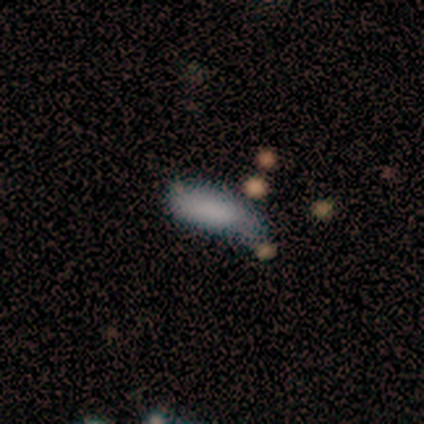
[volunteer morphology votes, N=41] Volunteers were most divided on "merging": none: 43%, minor disturbance: 41%, major disturbance: 11%, merger: 5%. More confident: smooth or featured — smooth (71%); how rounded — in between (52%).